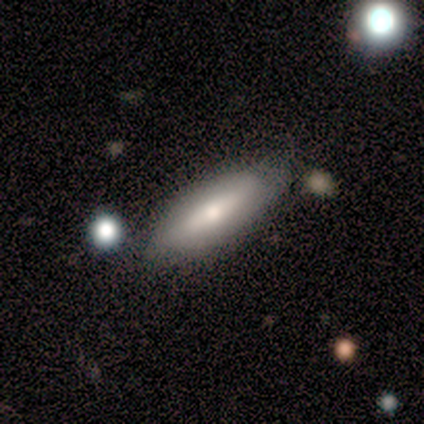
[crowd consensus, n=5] featured or disk 80%, smooth 20%, star or artifact 0%. Down the decision tree: edge-on disk — yes (50%, tied with no); edge-on bulge — boxy (50%, tied with rounded); merging — none (60%).